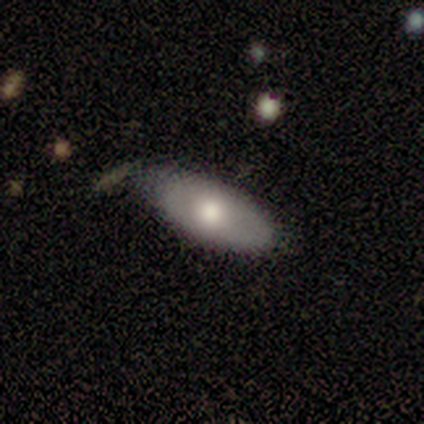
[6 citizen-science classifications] Smooth or featured? 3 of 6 (50%, tied with featured or disk) said smooth. How rounded? 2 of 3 (67%) said in between. Merging? 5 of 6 (83%) said none.